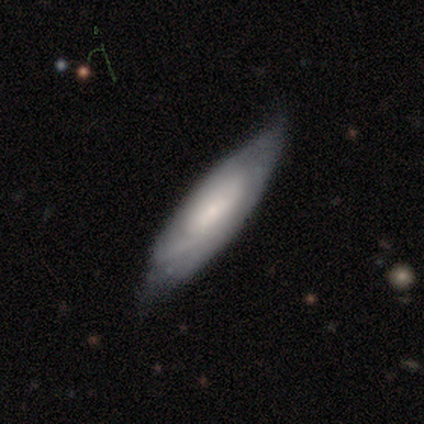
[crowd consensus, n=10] A featured or disk galaxy (60%) with no bar (75%), medium (67%) spiral arms (75%) and a small central bulge (75%). Merging: none (50%, tied with minor disturbance).